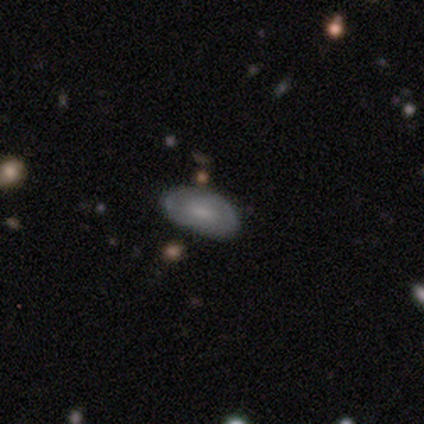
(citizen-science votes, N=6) smooth-or-featured: smooth: 50% (tied) | featured or disk: 50% (tied) | star or artifact: 0%
  how-rounded: in between: 100% | round: 0% | cigar-shaped: 0%
  merging: none: 83% | minor disturbance: 17% | major disturbance: 0% | merger: 0%